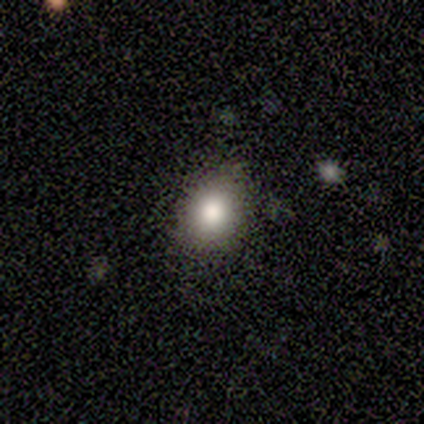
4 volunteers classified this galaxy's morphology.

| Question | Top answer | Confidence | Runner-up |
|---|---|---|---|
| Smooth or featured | smooth | 100% | — |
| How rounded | round | 50% | tied: in between (50%) |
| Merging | none | 75% | minor disturbance (25%) |